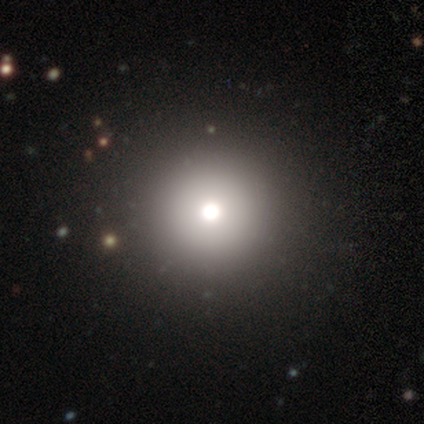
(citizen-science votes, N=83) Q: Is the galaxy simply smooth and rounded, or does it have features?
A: smooth — 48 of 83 (58%).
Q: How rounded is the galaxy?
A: round — 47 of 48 (98%).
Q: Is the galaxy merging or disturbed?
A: none — 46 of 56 (82%).